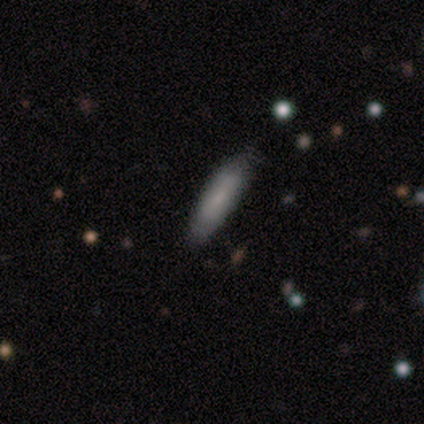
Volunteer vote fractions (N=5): A smooth galaxy with no disk features (80%) that is in between round and cigar-shaped (50%, tied with cigar-shaped). Merging: none (100%).